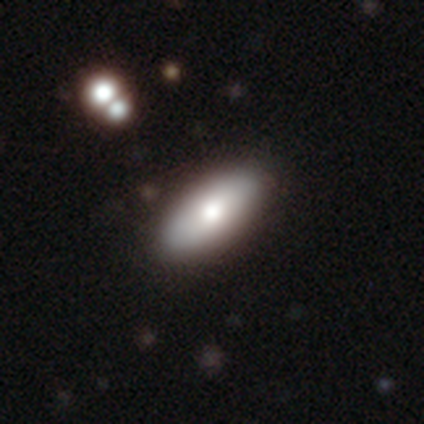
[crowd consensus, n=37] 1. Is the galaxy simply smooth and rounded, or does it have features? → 68% smooth, 24% featured or disk, 8% star or artifact.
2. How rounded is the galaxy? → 72% in between, 24% cigar-shaped, 4% round.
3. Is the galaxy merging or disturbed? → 97% none, 3% minor disturbance, 0% major disturbance, 0% merger.